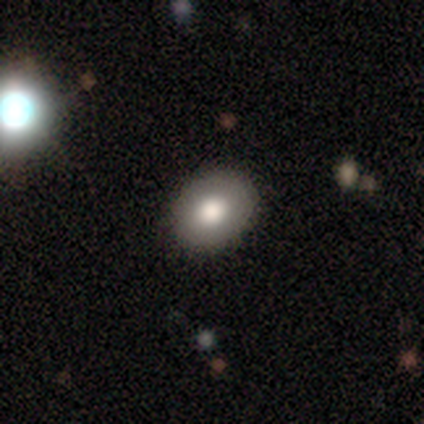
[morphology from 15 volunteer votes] Smooth or featured? smooth (80%)
How rounded? in between (58%)
Merging? none (87%)